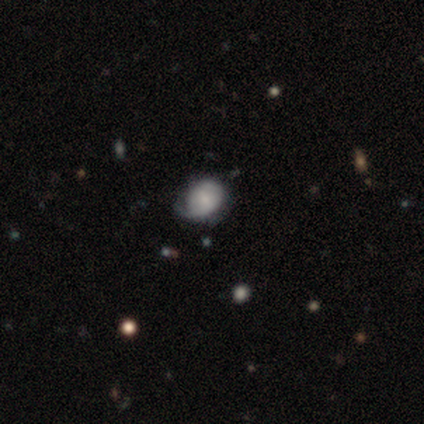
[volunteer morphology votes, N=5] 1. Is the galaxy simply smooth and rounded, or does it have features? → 60% smooth, 40% star or artifact, 0% featured or disk.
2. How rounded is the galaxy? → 67% in between, 33% round, 0% cigar-shaped.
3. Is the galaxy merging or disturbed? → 100% none, 0% minor disturbance, 0% major disturbance, 0% merger.